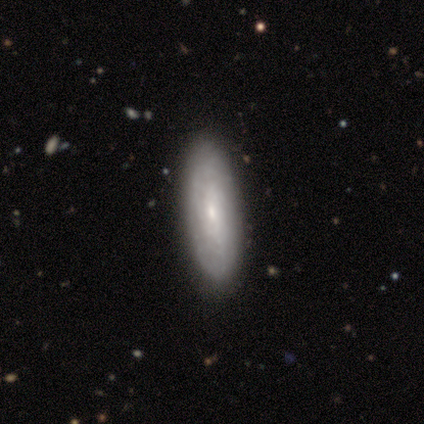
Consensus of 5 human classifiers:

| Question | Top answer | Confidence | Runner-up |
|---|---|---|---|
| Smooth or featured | featured or disk | 80% | star or artifact (20%) |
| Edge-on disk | no | 100% | — |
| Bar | no | 100% | — |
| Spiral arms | yes | 50% | tied: no (50%) |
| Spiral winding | tight | 100% | — |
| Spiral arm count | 2 | 50% | tied: more than 4 (50%) |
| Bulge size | small | 75% | moderate (25%) |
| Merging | none | 100% | — |